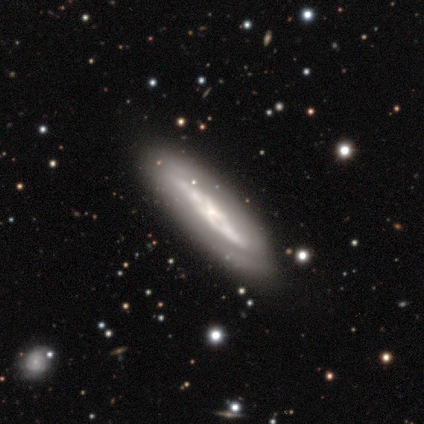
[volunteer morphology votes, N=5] A featured or disk galaxy (60%) viewed edge-on (67%) with a boxy central bulge (50%, tied with none). Merging: none (40%, tied with minor disturbance).